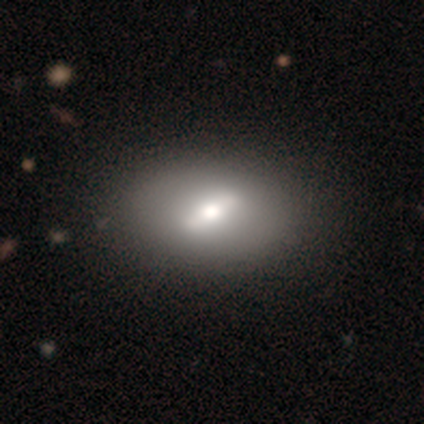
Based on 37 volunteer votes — Smooth or featured?
  - featured or disk: 54% *
  - smooth: 43%
  - star or artifact: 3%
Edge-on disk?
  - no: 80% *
  - yes: 20%
Bar?
  - strong: 62% *
  - weak: 31%
  - no: 6%
Spiral arms?
  - no: 94% *
  - yes: 6%
Bulge size?
  - moderate: 75% *
  - large: 25%
  - dominant: 0%
  - small: 0%
  - none: 0%
Merging?
  - none: 86% *
  - minor disturbance: 6%
  - major disturbance: 0%
  - merger: 0%